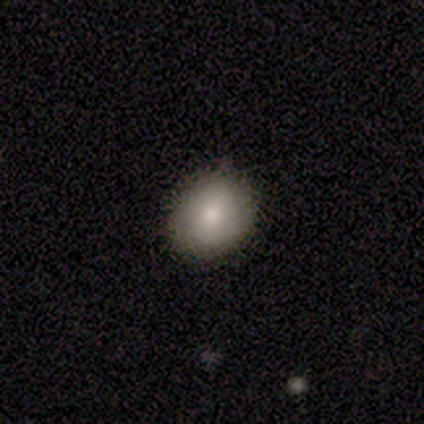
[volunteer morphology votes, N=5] This is clearly a smooth galaxy (100%). How rounded: clearly round (100%). Merging: clearly none (80%).